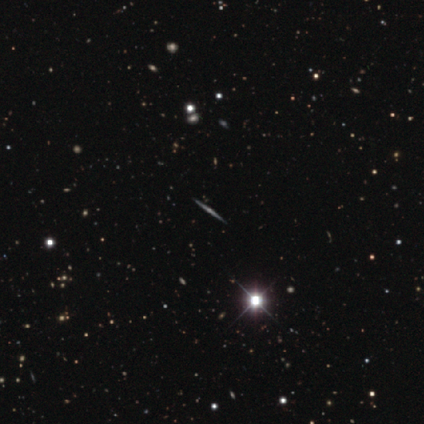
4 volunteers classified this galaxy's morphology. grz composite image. It shows a featured or disk galaxy (50%, tied with star or artifact) viewed edge-on (100%) with a rounded central bulge (100%). Merging: none (100%).